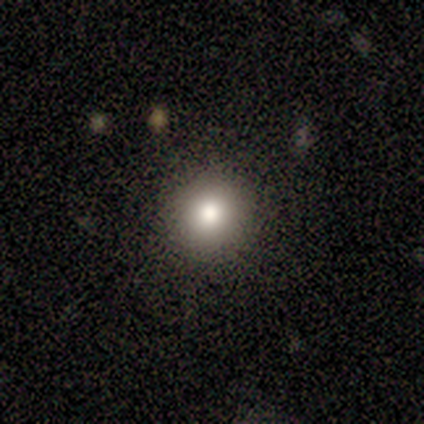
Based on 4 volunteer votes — smooth_or_featured: smooth (p=1.00)
how_rounded: round (p=1.00)
merging: none (p=1.00)